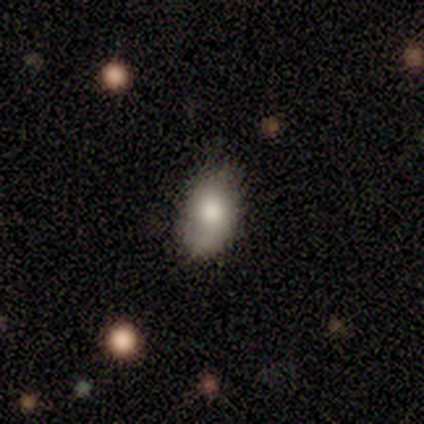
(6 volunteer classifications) A smooth galaxy with no disk features (100%) that is in between round and cigar-shaped (83%). Merging: none (100%).